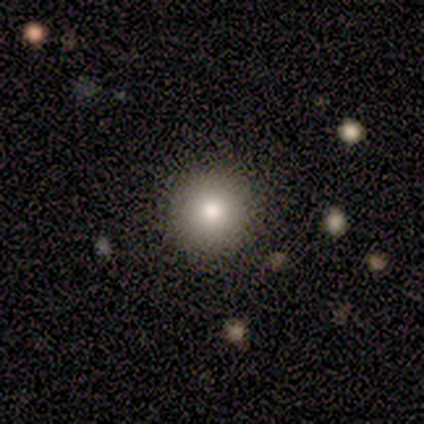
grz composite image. It shows a smooth galaxy with no disk features (82%) that is round (97%). Merging: none (85%).